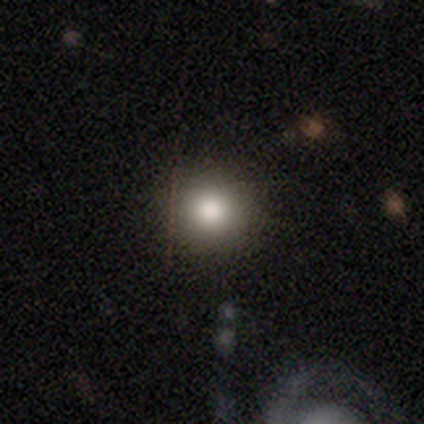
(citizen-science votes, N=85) Smooth or featured? 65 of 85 (76%) said smooth. How rounded? 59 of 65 (91%) said round. Merging? 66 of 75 (88%) said none.